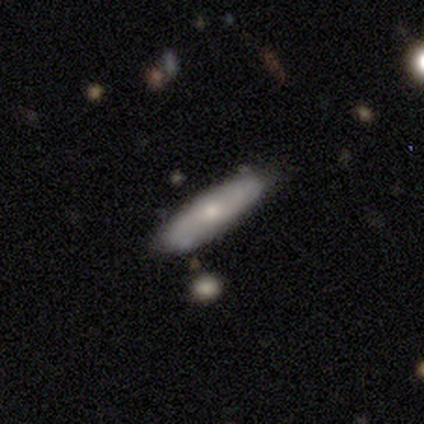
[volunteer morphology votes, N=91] Q: Smooth or featured?
A: smooth (55%); runner-up: featured or disk (42%)
Q: How rounded?
A: cigar-shaped (62%); runner-up: in between (38%)
Q: Merging?
A: none (83%); runner-up: minor disturbance (16%)